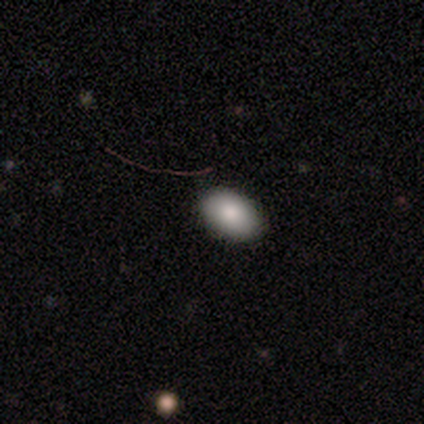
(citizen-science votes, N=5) A smooth galaxy with no disk features (100%) that is in between round and cigar-shaped (80%).

Vote fractions:
- Smooth or featured? smooth: 100% / featured or disk: 0% / star or artifact: 0%
- How rounded? in between: 80% / round: 20% / cigar-shaped: 0%
- Merging? none: 100% / minor disturbance: 0% / major disturbance: 0% / merger: 0%